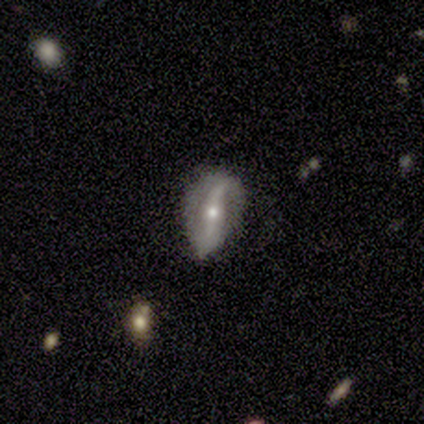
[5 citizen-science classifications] This is clearly a featured or disk galaxy (80%). It is possibly viewed edge-on (50%, tied with no). Edge-on bulge: clearly rounded (100%). Merging: clearly none (100%).